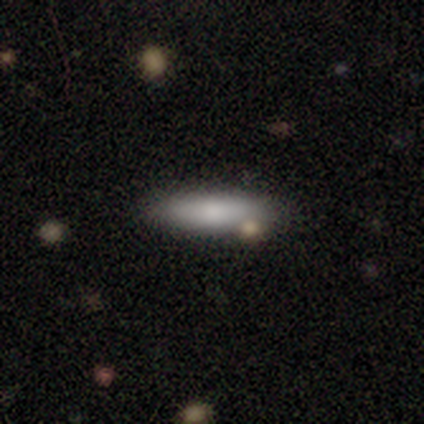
Volunteers were most divided on "how rounded": in between: 60%, cigar-shaped: 40%, round: 0%. More confident: smooth or featured — smooth (100%); merging — none (80%).